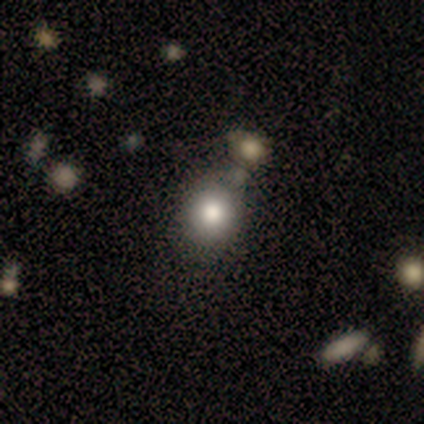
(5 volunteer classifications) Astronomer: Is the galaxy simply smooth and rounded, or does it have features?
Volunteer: smooth — 60%.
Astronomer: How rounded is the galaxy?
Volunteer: round — 67%.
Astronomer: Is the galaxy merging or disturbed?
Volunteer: none — 50%.